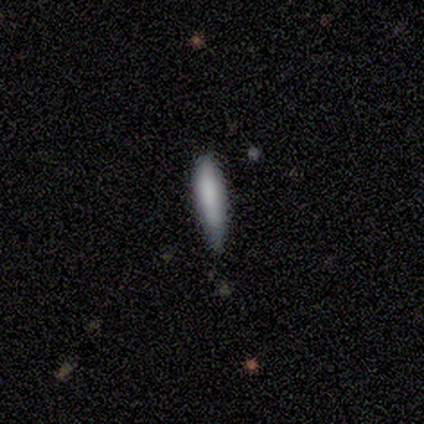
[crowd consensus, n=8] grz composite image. It shows a smooth galaxy with no disk features (62%) that is cigar-shaped (100%). Merging: none (57%).